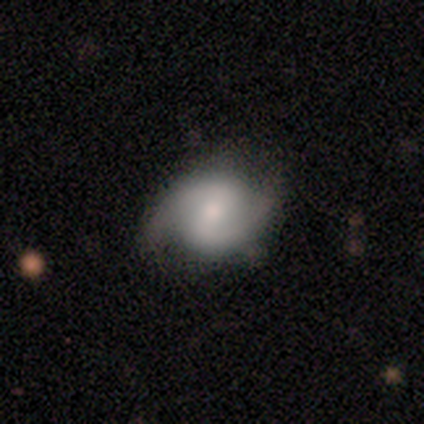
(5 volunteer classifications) Smooth or featured?
  - featured or disk: 100% *
  - smooth: 0%
  - star or artifact: 0%
Edge-on disk?
  - no: 100% *
  - yes: 0%
Bar?
  - weak: 80% *
  - no: 20%
  - strong: 0%
Spiral arms?
  - yes: 80% *
  - no: 20%
Spiral winding?
  - medium: 75% *
  - loose: 25%
  - tight: 0%
Spiral arm count?
  - 2: 100% *
  - 1: 0%
  - 3: 0%
  - 4: 0%
  - more than 4: 0%
  - can't tell: 0%
Bulge size?
  - small: 60% *
  - large: 20%
  - moderate: 20%
  - dominant: 0%
  - none: 0%
Merging?
  - none: 80% *
  - minor disturbance: 20%
  - major disturbance: 0%
  - merger: 0%